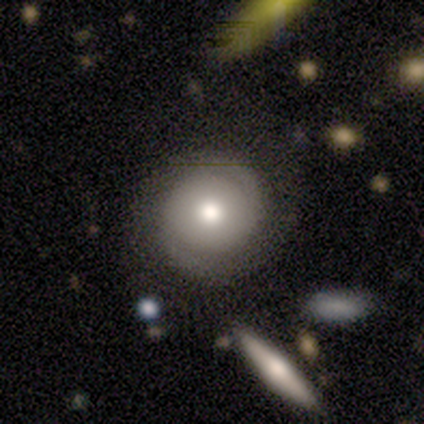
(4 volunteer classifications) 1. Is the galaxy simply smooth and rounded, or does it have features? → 50% smooth (tied), 50% featured or disk (tied), 0% star or artifact.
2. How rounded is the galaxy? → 100% round, 0% in between, 0% cigar-shaped.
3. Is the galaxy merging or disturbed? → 100% none, 0% minor disturbance, 0% major disturbance, 0% merger.